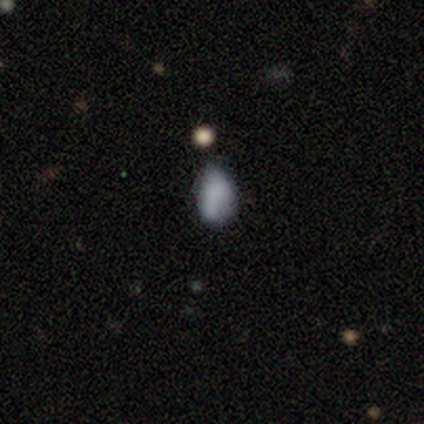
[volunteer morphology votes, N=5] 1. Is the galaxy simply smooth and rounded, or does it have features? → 60% smooth, 40% featured or disk, 0% star or artifact.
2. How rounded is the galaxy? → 67% in between, 33% round, 0% cigar-shaped.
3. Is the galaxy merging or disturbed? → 100% none, 0% minor disturbance, 0% major disturbance, 0% merger.